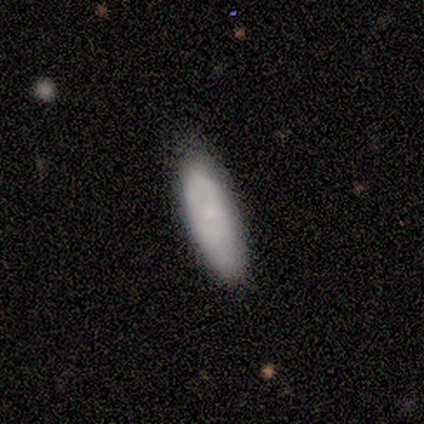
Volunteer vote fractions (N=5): Overall: smooth (100%). How rounded: in between (40%, tied with cigar-shaped). Merging: none (100%).